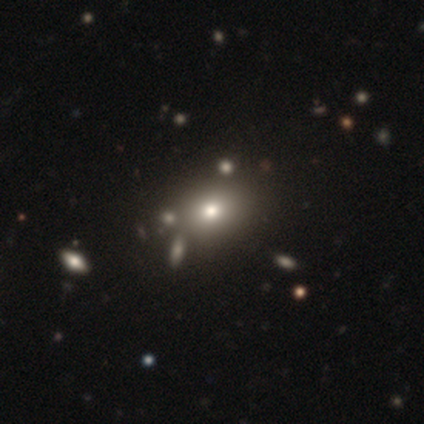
smooth_or_featured: smooth (p=0.50) [tied with: featured or disk p=0.50]
how_rounded: in between (p=1.00)
merging: none (p=0.75) [alt: merger p=0.25]